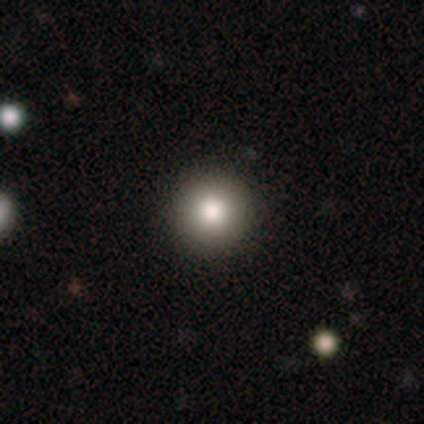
smooth_or_featured: smooth (p=0.87) [alt: star or artifact p=0.08]
how_rounded: round (p=1.00)
merging: none (p=0.97) [alt: major disturbance p=0.03]